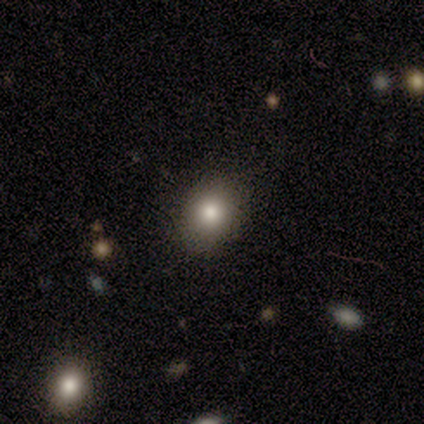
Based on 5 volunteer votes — smooth-or-featured: smooth: 100% | featured or disk: 0% | star or artifact: 0%
  how-rounded: in between: 60% | round: 40% | cigar-shaped: 0%
  merging: none: 60% | minor disturbance: 40% | major disturbance: 0% | merger: 0%